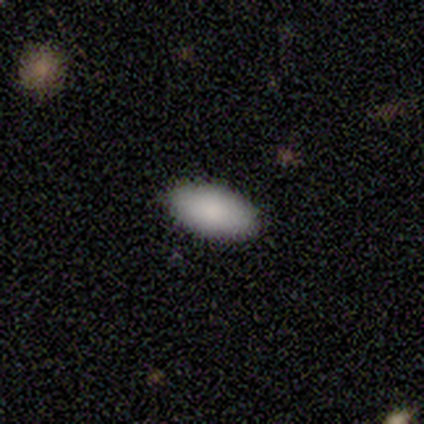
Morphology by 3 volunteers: A smooth galaxy with no disk features (67%) that is in between round and cigar-shaped (50%, tied with cigar-shaped).

Vote fractions:
- Smooth or featured? smooth: 67% / star or artifact: 33% / featured or disk: 0%
- How rounded? in between: 50% (tied) / cigar-shaped: 50% (tied) / round: 0%
- Merging? none: 100% / minor disturbance: 0% / major disturbance: 0% / merger: 0%